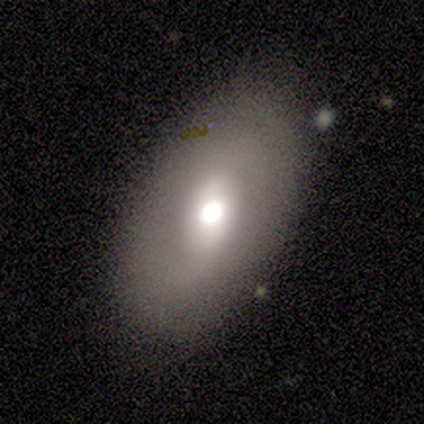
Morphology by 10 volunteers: This appears to be a smooth galaxy with no disk features (70%) that is in between round and cigar-shaped (100%). Merging: none (78%).